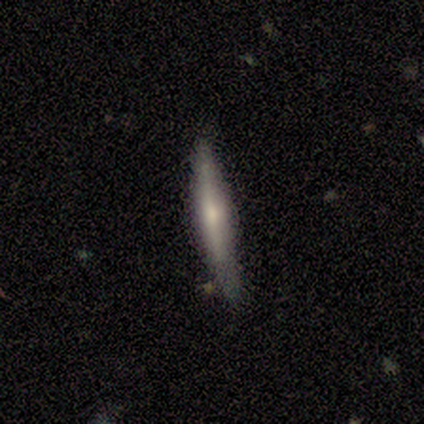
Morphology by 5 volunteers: smooth 60%, featured or disk 40%, star or artifact 0%. Down the decision tree: how rounded — cigar-shaped (100%); merging — none (60%).